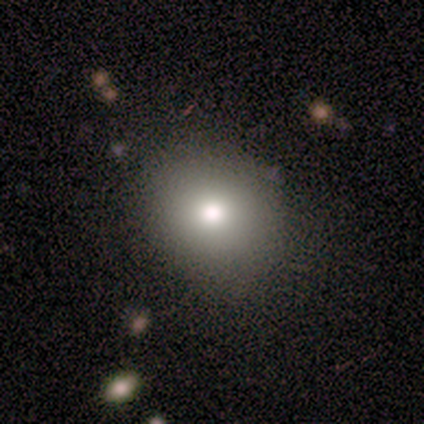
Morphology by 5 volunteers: Smooth or featured: smooth — 80% (featured or disk — 20%)
How rounded: round — 75% (in between — 25%)
Merging: none — 80% (merger — 20%)